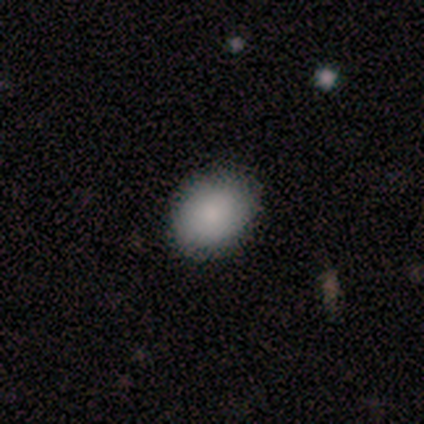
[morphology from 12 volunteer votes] Volunteers were most divided on "how rounded": round: 67%, in between: 33%, cigar-shaped: 0%. More confident: smooth or featured — smooth (100%); merging — none (100%).